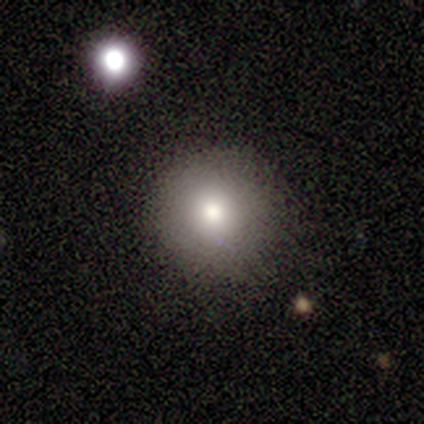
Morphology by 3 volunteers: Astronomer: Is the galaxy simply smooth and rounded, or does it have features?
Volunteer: smooth — 100%.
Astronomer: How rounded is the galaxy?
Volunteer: round — 100%.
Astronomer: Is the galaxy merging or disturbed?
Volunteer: none — 100%.